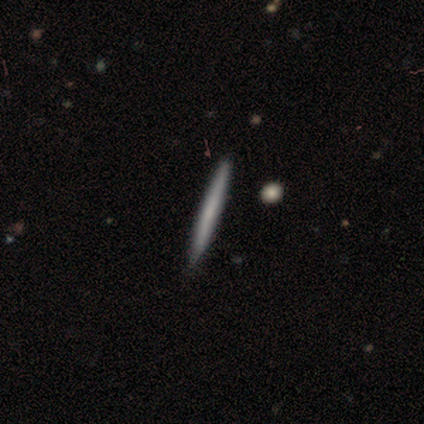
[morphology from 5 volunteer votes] This is clearly a smooth galaxy (100%). How rounded: clearly cigar-shaped (100%). Merging: clearly none (100%).